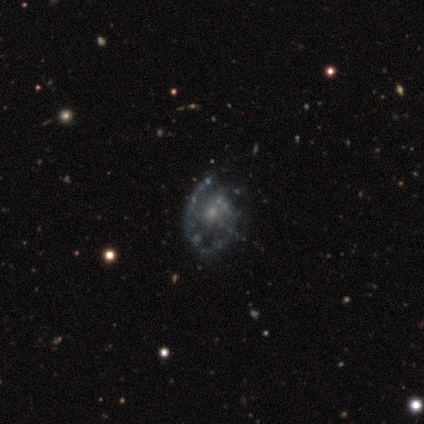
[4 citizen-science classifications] This is likely a featured or disk galaxy (75%). It is clearly not viewed edge-on (100%). Bar: likely weak (67%). Spiral arm pattern: likely yes (67%). Spiral arm count: possibly 1 (50%, tied with 2). Spiral winding: clearly medium (100%). Central bulge: likely small (67%). Merging: possibly none (50%, tied with minor disturbance).